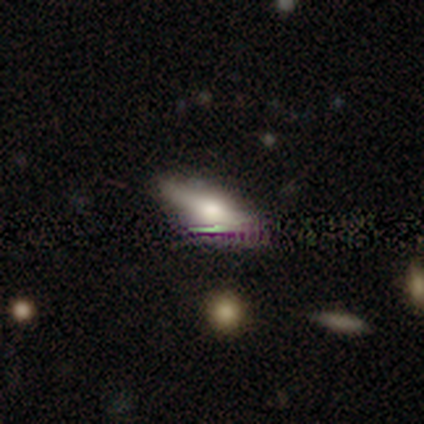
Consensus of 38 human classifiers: This is possibly a featured or disk galaxy (50%). It is clearly viewed edge-on (95%). Edge-on bulge: clearly rounded (89%). Merging: clearly none (81%).